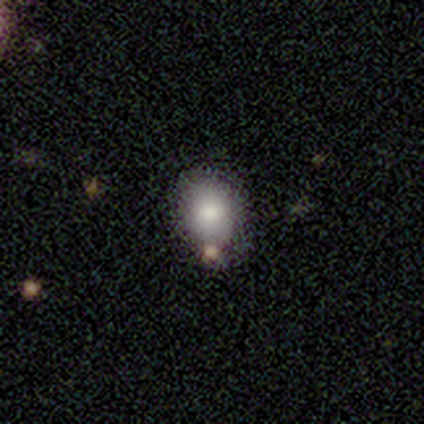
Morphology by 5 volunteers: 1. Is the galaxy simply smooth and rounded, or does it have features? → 100% smooth, 0% featured or disk, 0% star or artifact.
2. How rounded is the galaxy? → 80% round, 20% in between, 0% cigar-shaped.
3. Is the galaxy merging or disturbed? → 80% none, 20% merger, 0% minor disturbance, 0% major disturbance.